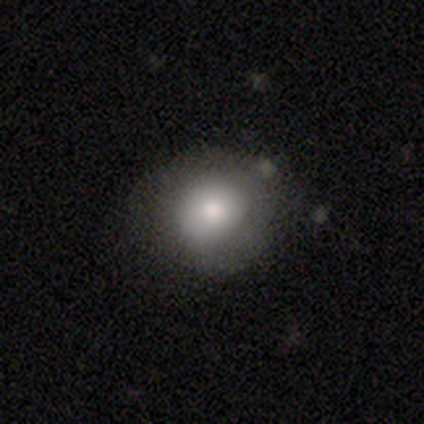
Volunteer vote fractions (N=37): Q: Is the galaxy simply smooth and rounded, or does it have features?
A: smooth — 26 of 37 (70%).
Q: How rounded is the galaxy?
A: round — 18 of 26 (69%).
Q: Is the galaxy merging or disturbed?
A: none — 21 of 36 (58%).